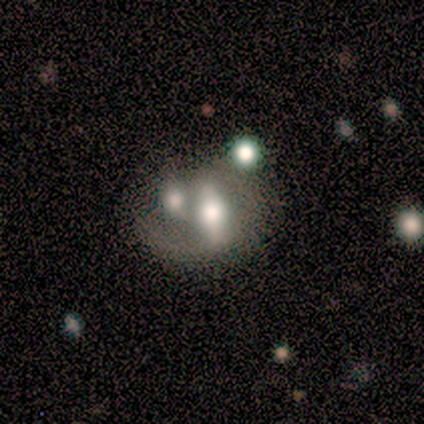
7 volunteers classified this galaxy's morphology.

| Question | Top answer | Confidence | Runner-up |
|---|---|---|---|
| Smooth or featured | featured or disk | 43% | smooth (29%) |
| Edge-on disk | no | 100% | — |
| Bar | no | 67% | weak (33%) |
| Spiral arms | no | 67% | yes (33%) |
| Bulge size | large | 67% | small (33%) |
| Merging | merger | 60% | none (20%) |